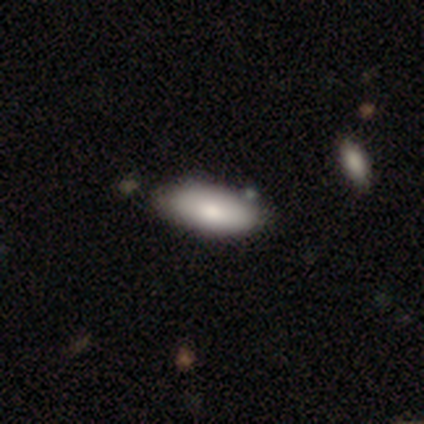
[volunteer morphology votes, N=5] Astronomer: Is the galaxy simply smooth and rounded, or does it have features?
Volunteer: smooth — 100%.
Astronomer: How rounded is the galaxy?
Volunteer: in between — 100%.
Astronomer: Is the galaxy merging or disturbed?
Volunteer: none — 40%, tied with minor disturbance at 40%.